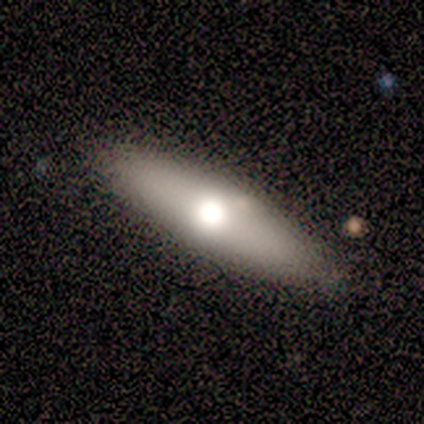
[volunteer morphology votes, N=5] Smooth or featured: featured or disk — 60% (smooth — 40%)
Edge-on disk: yes — 67% (no — 33%)
Edge-on bulge: none — 50% (tied with rounded — 50%)
Merging: none — 100%